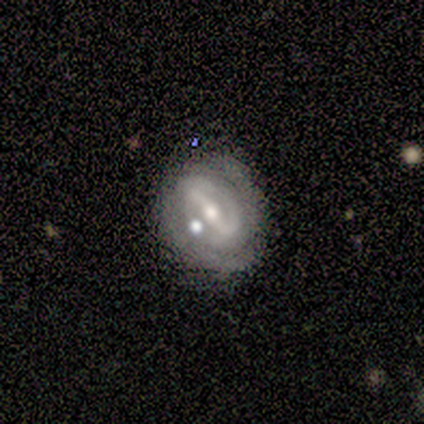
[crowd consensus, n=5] Morphology: type=featured or disk (100%); edge-on=no (100%); bar=strong (100%); spiral arms=yes (60%); winding=tight (67%); arm count=2 (100%); bulge=moderate (60%); merging=none (60%).